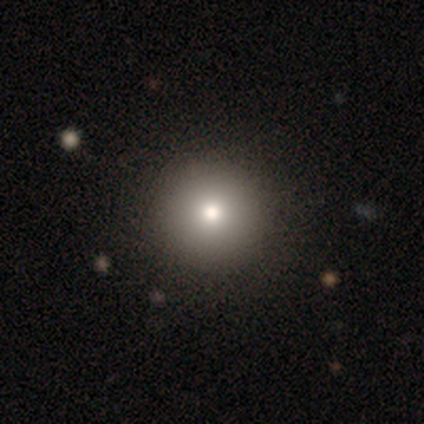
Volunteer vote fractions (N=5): Smooth or featured? 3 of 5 (60%) said smooth. How rounded? 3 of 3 (100%) said round. Merging? 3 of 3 (100%) said none.